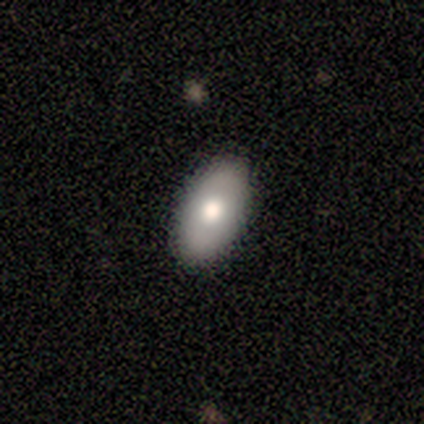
Smooth or featured? featured or disk (60%)
Edge-on disk? no (100%)
Bar? no (100%)
Spiral arms? no (100%)
Bulge size? moderate (100%)
Merging? none (100%)